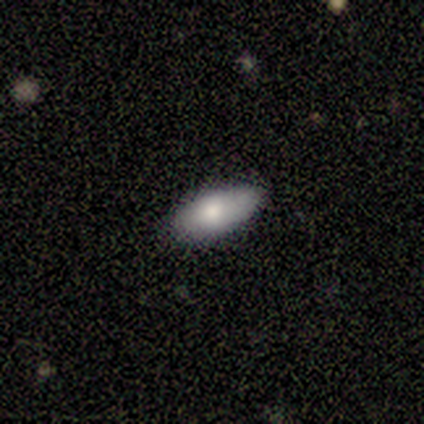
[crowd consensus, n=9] Smooth or featured? 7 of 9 (78%) said smooth. How rounded? 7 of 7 (100%) said in between. Merging? 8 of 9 (89%) said none.